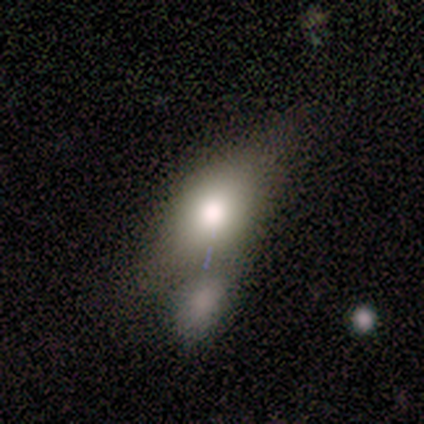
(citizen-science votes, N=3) Overall: smooth (67%; star or artifact 33%). How rounded: in between (100%). Merging: minor disturbance (50%, tied with merger).